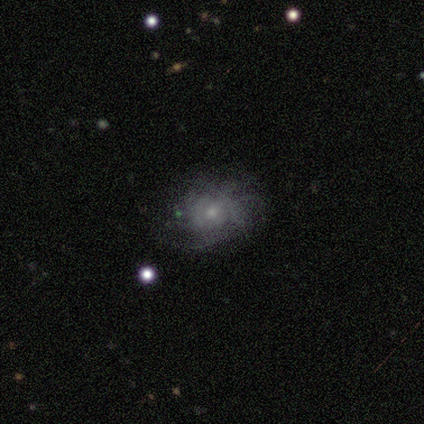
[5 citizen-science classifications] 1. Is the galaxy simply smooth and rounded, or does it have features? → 80% featured or disk, 20% smooth, 0% star or artifact.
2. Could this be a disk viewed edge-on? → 100% no, 0% yes.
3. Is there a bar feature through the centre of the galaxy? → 75% no, 25% weak, 0% strong.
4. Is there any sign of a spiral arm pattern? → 75% yes, 25% no.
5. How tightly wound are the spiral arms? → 67% medium, 33% tight, 0% loose.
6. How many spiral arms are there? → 100% can't tell, 0% 1, 0% 2, 0% 3, 0% 4, 0% more than 4.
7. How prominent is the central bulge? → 50% moderate (tied), 50% small (tied), 0% dominant, 0% large, 0% none.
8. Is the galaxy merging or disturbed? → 100% none, 0% minor disturbance, 0% major disturbance, 0% merger.